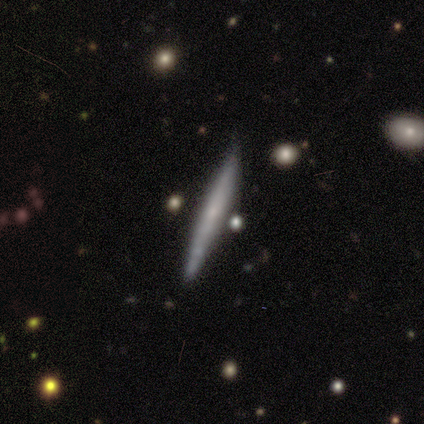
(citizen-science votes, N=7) A featured or disk galaxy (71%) viewed edge-on (60%) with no central bulge (67%).

Vote fractions:
- Smooth or featured? featured or disk: 71% / smooth: 29% / star or artifact: 0%
- Edge-on disk? yes: 60% / no: 40%
- Edge-on bulge? none: 67% / rounded: 33% / boxy: 0%
- Merging? none: 86% / minor disturbance: 14% / major disturbance: 0% / merger: 0%